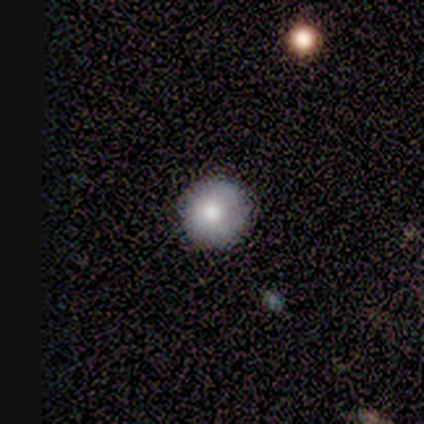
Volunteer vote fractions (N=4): Smooth or featured? 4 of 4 (100%) said smooth. How rounded? 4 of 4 (100%) said round. Merging? 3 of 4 (75%) said none.